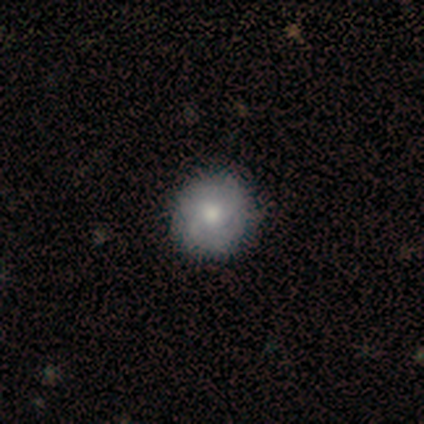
A smooth galaxy with no disk features (65%) that is round (92%).

Vote fractions:
- Smooth or featured? smooth: 65% / featured or disk: 25% / star or artifact: 10%
- How rounded? round: 92% / in between: 8% / cigar-shaped: 0%
- Merging? none: 78% / minor disturbance: 17% / major disturbance: 6% / merger: 0%